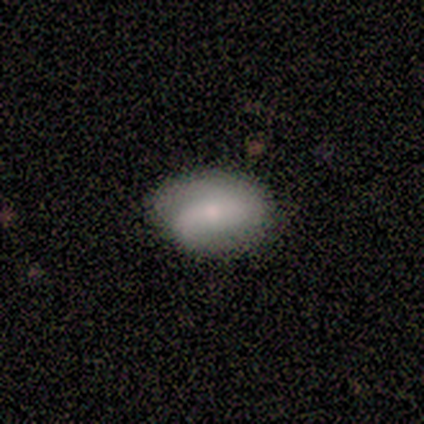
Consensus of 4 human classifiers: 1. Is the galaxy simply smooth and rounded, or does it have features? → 50% smooth, 25% featured or disk, 25% star or artifact.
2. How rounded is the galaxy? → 100% in between, 0% round, 0% cigar-shaped.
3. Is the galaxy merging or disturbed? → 67% minor disturbance, 33% none, 0% major disturbance, 0% merger.